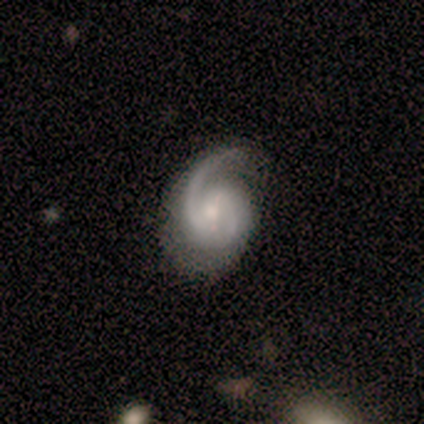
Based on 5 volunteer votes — Smooth or featured: featured or disk — 80% (smooth — 20%)
Edge-on disk: no — 100%
Bar: weak — 50% (tied with no — 50%)
Spiral arms: yes — 100%
Spiral winding: medium — 50% (tight — 25%)
Spiral arm count: 2 — 75% (3 — 25%)
Bulge size: moderate — 100%
Merging: none — 60% (minor disturbance — 40%)